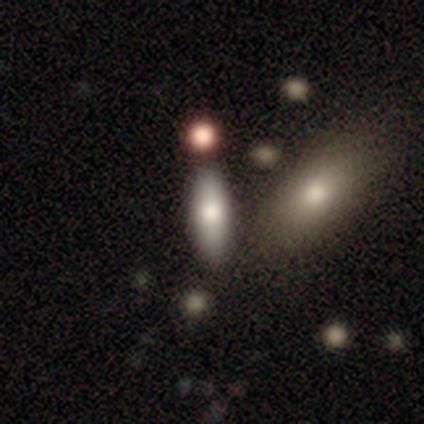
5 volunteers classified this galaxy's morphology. Smooth or featured: smooth — 60% (featured or disk — 40%)
How rounded: cigar-shaped — 67% (in between — 33%)
Merging: none — 80% (merger — 20%)